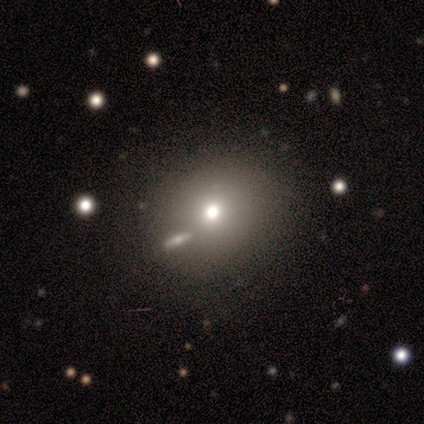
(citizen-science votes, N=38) This is likely a smooth galaxy (61%). How rounded: clearly round (87%). Merging: clearly none (84%).